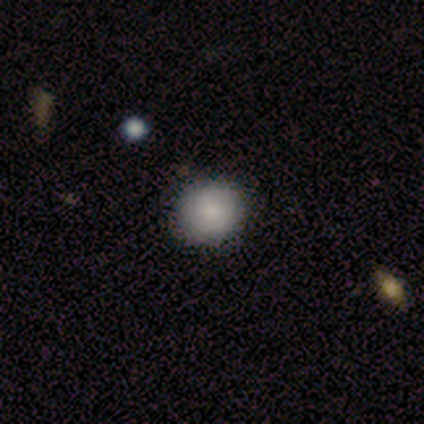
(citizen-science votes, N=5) This is clearly a smooth galaxy (80%). How rounded: likely round (75%). Merging: clearly none (80%).